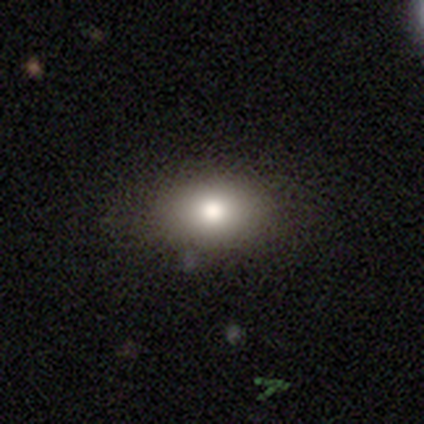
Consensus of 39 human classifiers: Q: Smooth or featured?
A: smooth (82%); runner-up: featured or disk (10%)
Q: How rounded?
A: in between (69%); runner-up: round (28%)
Q: Merging?
A: none (83%); runner-up: minor disturbance (11%)